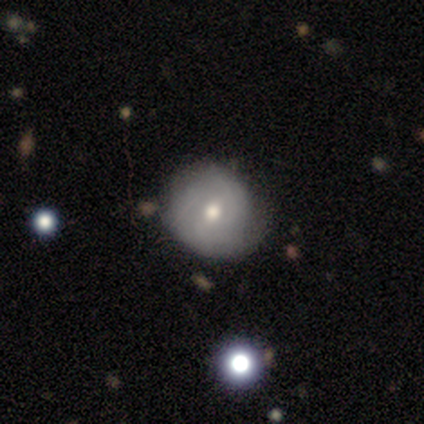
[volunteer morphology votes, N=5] type=smooth (60%); roundness=round (100%); merging=none (80%).